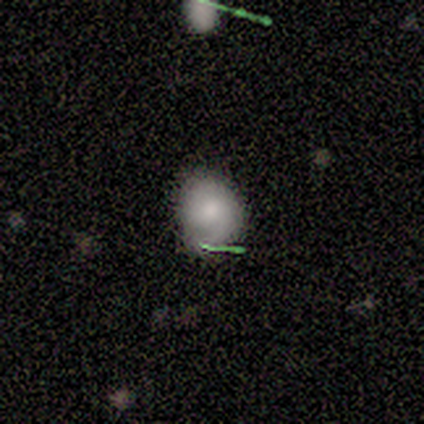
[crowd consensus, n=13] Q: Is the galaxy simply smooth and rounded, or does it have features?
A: smooth — 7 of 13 (54%).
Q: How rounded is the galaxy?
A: round — 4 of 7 (57%).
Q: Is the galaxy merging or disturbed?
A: none — 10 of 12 (83%).